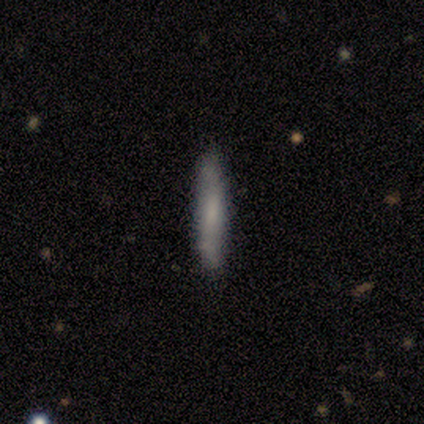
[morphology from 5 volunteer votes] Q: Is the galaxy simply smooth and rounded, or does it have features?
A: smooth — 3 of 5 (60%).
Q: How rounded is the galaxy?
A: cigar-shaped — 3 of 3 (100%).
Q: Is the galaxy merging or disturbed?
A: minor disturbance — 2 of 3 (67%).